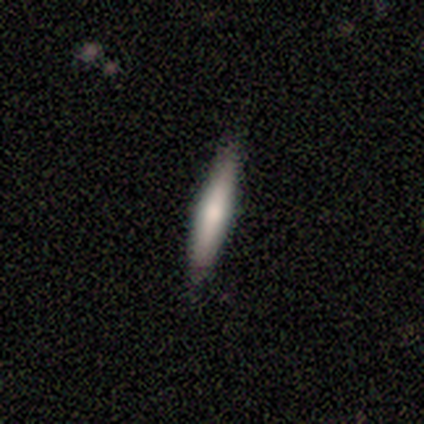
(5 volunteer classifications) Volunteers were most divided on "smooth or featured": featured or disk: 60%, smooth: 40%, star or artifact: 0%. More confident: edge-on bulge — rounded (100%); edge-on disk — yes (67%); merging — none (60%).